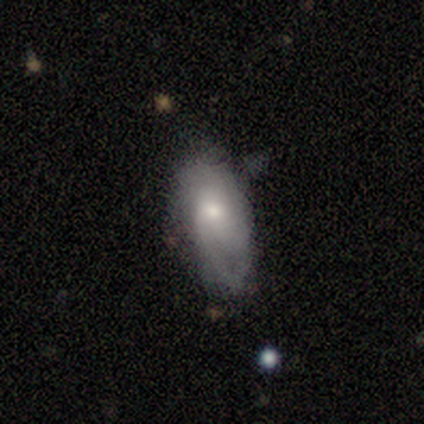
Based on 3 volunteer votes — smooth_or_featured: smooth (p=1.00)
how_rounded: cigar-shaped (p=0.67) [alt: round p=0.33]
merging: minor disturbance (p=0.67) [alt: major disturbance p=0.33]